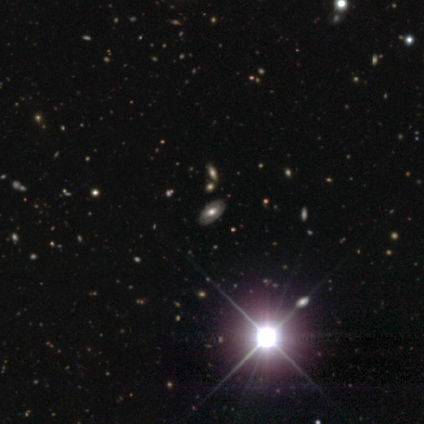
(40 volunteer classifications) Volunteers were most divided on "smooth or featured": star or artifact: 50%, featured or disk: 42%, smooth: 8%.